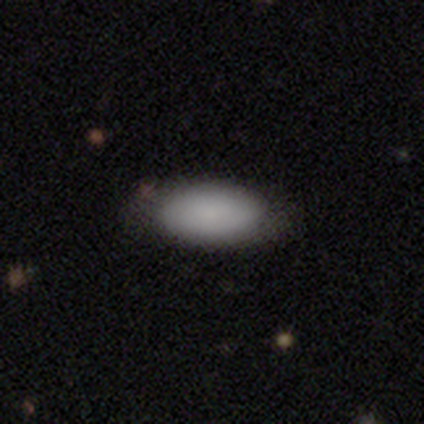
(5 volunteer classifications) A smooth galaxy with no disk features (100%) that is in between round and cigar-shaped (100%).

Vote fractions:
- Smooth or featured? smooth: 100% / featured or disk: 0% / star or artifact: 0%
- How rounded? in between: 100% / round: 0% / cigar-shaped: 0%
- Merging? none: 100% / minor disturbance: 0% / major disturbance: 0% / merger: 0%